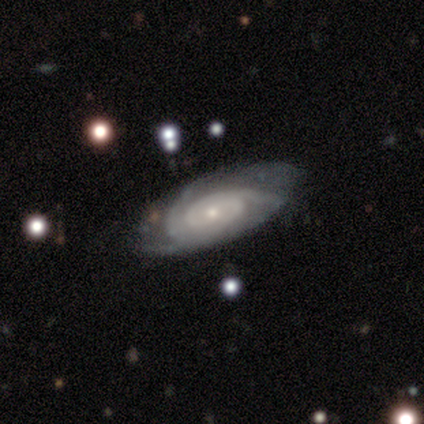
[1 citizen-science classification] featured or disk 100%, smooth 0%, star or artifact 0%. Down the decision tree: edge-on disk — no (100%); bar — no (100%); spiral arms — yes (100%); spiral arm count — 3 (100%); spiral winding — tight (100%); bulge size — small (100%); merging — none (100%).